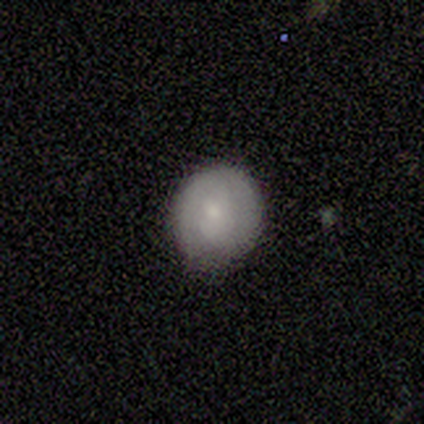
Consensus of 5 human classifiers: Overall: featured or disk (60%; smooth 40%). Edge-on disk: no (100%). Bar: no (100%). Spiral arms: no (67%; yes 33%). Bulge size: small (67%; moderate 33%). Merging: none (60%; minor disturbance 40%).